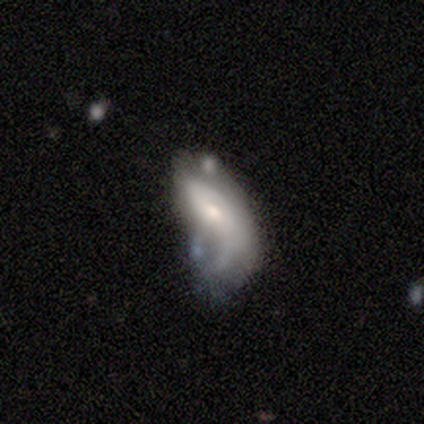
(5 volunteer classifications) A smooth galaxy with no disk features (40%, tied with star or artifact) that is in between round and cigar-shaped (100%).

Vote fractions:
- Smooth or featured? smooth: 40% (tied) / star or artifact: 40% (tied) / featured or disk: 20%
- How rounded? in between: 100% / round: 0% / cigar-shaped: 0%
- Merging? major disturbance: 67% / none: 33% / minor disturbance: 0% / merger: 0%